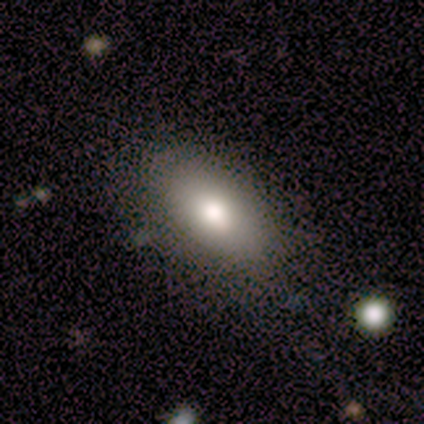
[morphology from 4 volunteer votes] This appears to be a smooth galaxy with no disk features (100%) that is in between round and cigar-shaped (100%). Merging: none (75%).